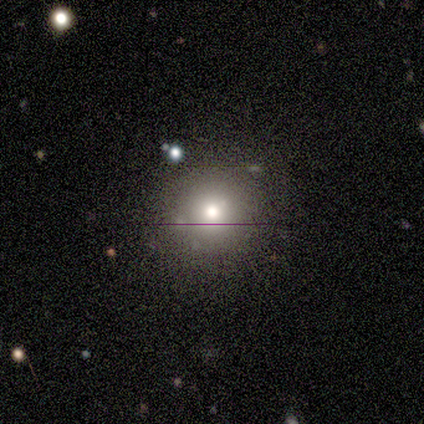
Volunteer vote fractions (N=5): smooth 40% (tied), star or artifact 40% (tied), featured or disk 20%. Down the decision tree: how rounded — round (50%, tied with in between); merging — none (67%).